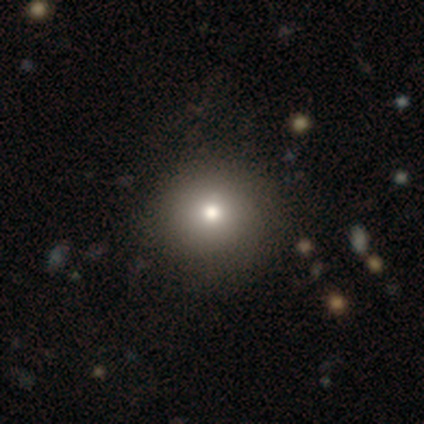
Q: Smooth or featured?
A: smooth (75%); runner-up: featured or disk (25%)
Q: How rounded?
A: round (100%)
Q: Merging?
A: none (50%); tied with: major disturbance (50%)